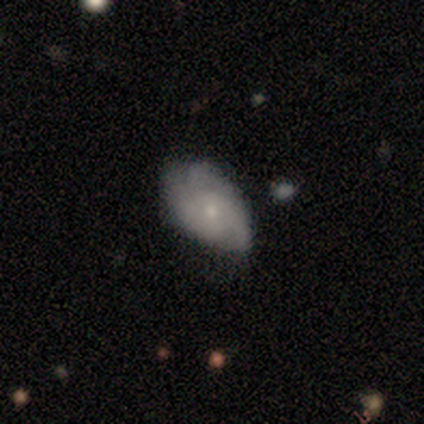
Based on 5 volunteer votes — smooth 80%, featured or disk 20%, star or artifact 0%. Down the decision tree: how rounded — in between (100%); merging — none (60%).